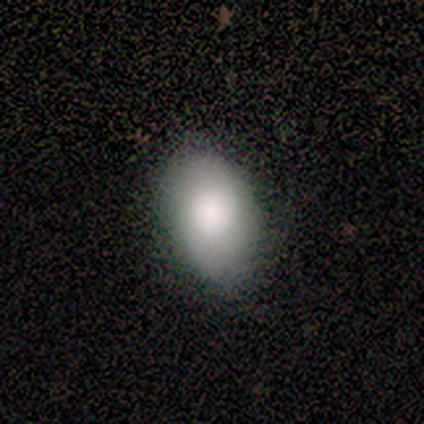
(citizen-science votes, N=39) Smooth or featured? smooth (90%)
How rounded? in between (94%)
Merging? none (74%)